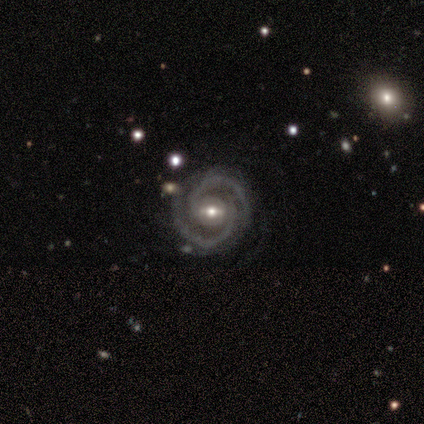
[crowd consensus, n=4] This is clearly a featured or disk galaxy (100%). It is clearly not viewed edge-on (100%). Bar: possibly strong (50%, tied with weak). Spiral arm pattern: clearly yes (100%). Spiral arm count: clearly 2 (100%). Spiral winding: possibly tight (50%, tied with medium). Central bulge: likely moderate (75%). Merging: likely none (75%).